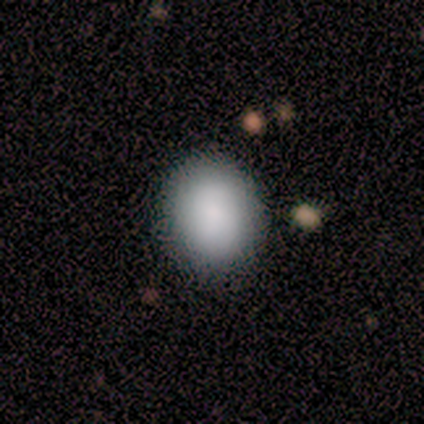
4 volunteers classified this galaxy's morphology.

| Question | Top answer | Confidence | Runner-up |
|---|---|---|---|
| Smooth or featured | smooth | 100% | — |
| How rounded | round | 50% | tied: in between (50%) |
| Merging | none | 100% | — |